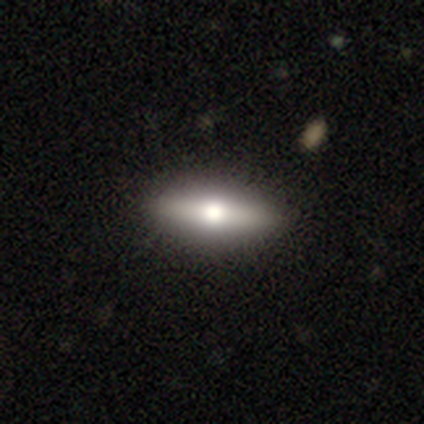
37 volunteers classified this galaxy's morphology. Smooth or featured: featured or disk — 49% (smooth — 46%)
Edge-on disk: yes — 94% (no — 6%)
Edge-on bulge: rounded — 94% (none — 6%)
Merging: none — 71% (minor disturbance — 3%)